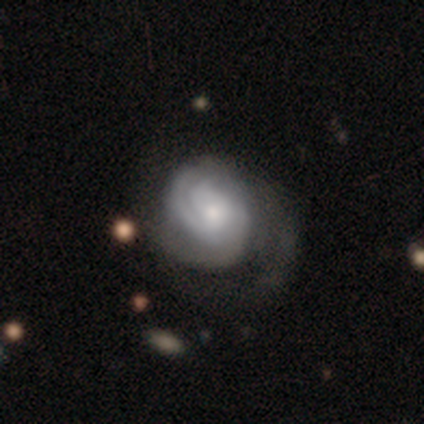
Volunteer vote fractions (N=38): Smooth or featured? featured or disk (84%)
Edge-on disk? no (100%)
Bar? no (84%)
Spiral arms? yes (94%)
Spiral winding? tight (57%)
Spiral arm count? can't tell (43%)
Bulge size? moderate (41%)
Merging? none (50%)